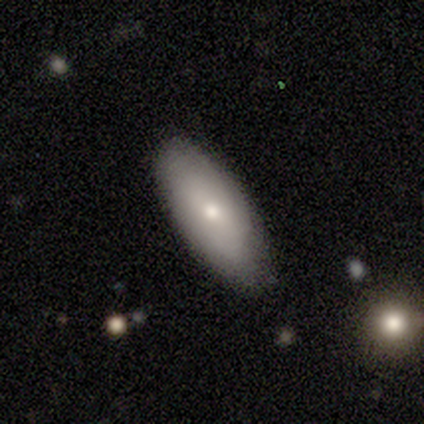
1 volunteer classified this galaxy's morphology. Smooth or featured? smooth (100%)
How rounded? in between (100%)
Merging? none (100%)